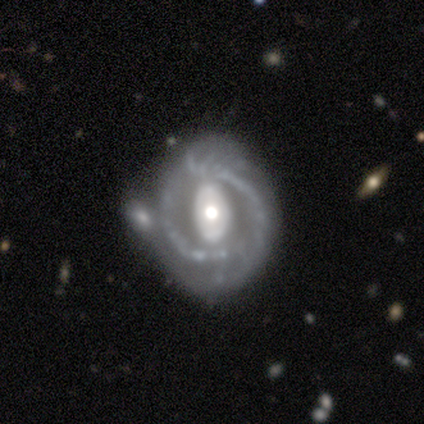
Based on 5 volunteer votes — Smooth or featured? featured or disk (80%)
Edge-on disk? no (100%)
Bar? strong (75%)
Spiral arms? yes (100%)
Spiral winding? medium (75%)
Spiral arm count? 2 (75%)
Bulge size? large (50%, tied with moderate)
Merging? major disturbance (50%)